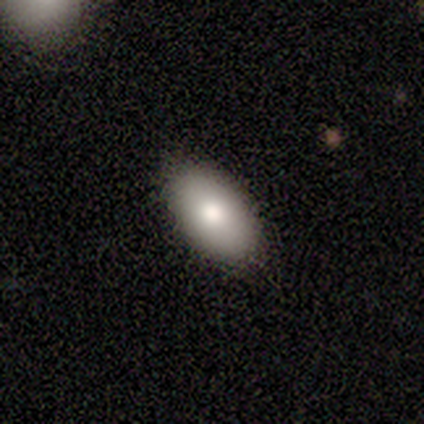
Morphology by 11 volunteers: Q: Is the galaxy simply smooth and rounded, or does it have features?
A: smooth — 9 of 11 (82%).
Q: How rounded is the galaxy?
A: in between — 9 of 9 (100%).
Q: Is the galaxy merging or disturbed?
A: none — 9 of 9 (100%).